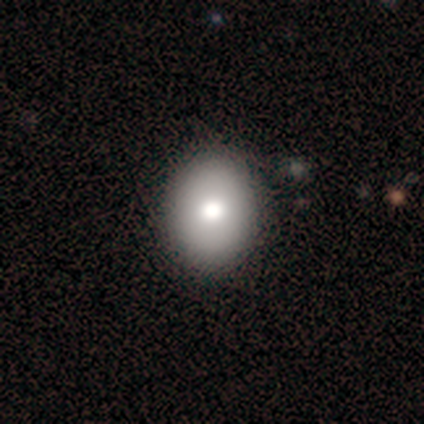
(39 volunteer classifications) Smooth or featured? smooth (85%)
How rounded? in between (88%)
Merging? none (74%)